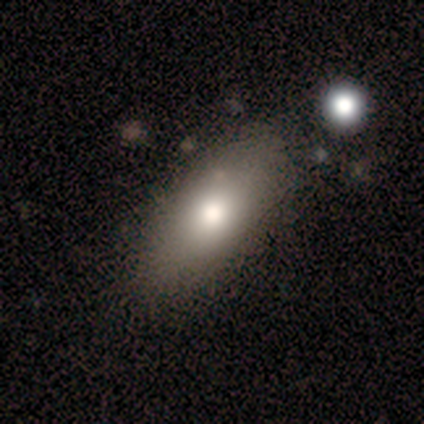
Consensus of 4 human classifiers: smooth_or_featured: smooth (p=0.75) [alt: featured or disk p=0.25]
how_rounded: in between (p=1.00)
merging: none (p=0.50) [alt: minor disturbance p=0.25]